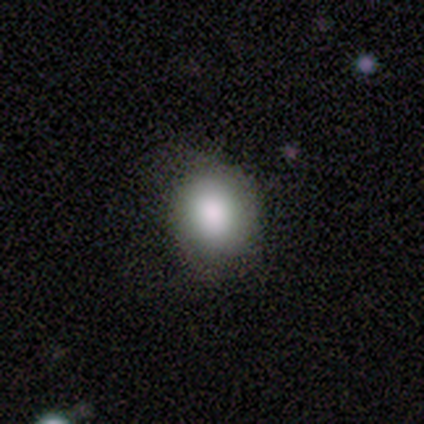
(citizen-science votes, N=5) Smooth or featured: smooth — 60% (featured or disk — 20%)
How rounded: round — 67% (in between — 33%)
Merging: minor disturbance — 75% (none — 25%)